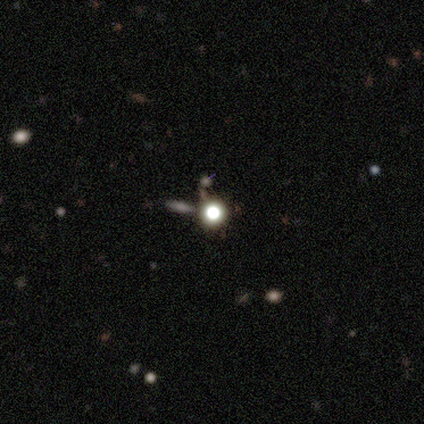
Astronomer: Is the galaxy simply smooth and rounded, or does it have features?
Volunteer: star or artifact — 100%.